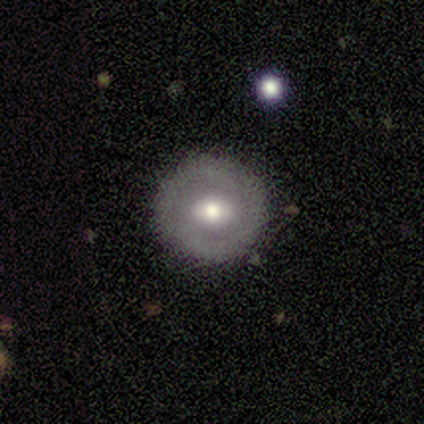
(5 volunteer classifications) smooth_or_featured: featured or disk (p=0.60) [alt: smooth p=0.40]
disk_edge_on: no (p=1.00)
bar: no (p=0.67) [alt: weak p=0.33]
has_spiral_arms: no (p=1.00)
bulge_size: moderate (p=0.67) [alt: large p=0.33]
merging: none (p=0.60) [alt: minor disturbance p=0.20]